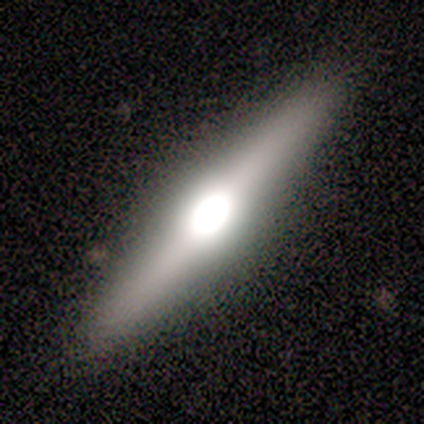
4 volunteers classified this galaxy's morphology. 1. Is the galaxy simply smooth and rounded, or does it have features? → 100% featured or disk, 0% smooth, 0% star or artifact.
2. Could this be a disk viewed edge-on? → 100% yes, 0% no.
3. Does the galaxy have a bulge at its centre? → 50% rounded, 25% boxy, 25% none.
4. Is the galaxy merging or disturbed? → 75% none, 25% minor disturbance, 0% major disturbance, 0% merger.